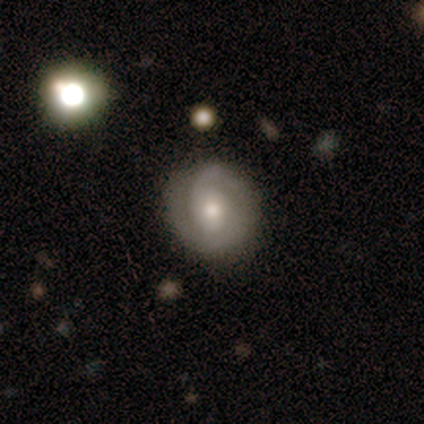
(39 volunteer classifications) This is likely a featured or disk galaxy (77%). It is clearly not viewed edge-on (97%). Bar: likely no (66%). Spiral arm pattern: clearly yes (93%). Spiral arm count: possibly 2 (52%). Spiral winding: possibly tight (59%). Central bulge: possibly moderate (52%). Merging: clearly none (82%).